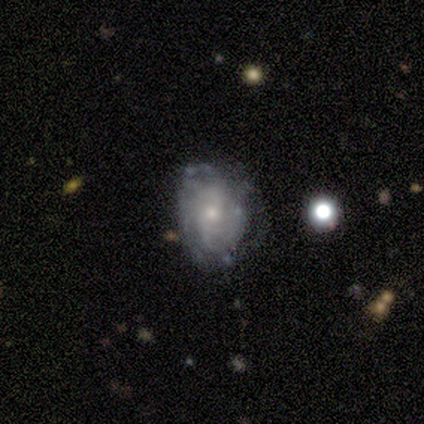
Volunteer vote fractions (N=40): Q: Smooth or featured?
A: featured or disk (70%); runner-up: smooth (28%)
Q: Edge-on disk?
A: no (100%)
Q: Bar?
A: no (79%); runner-up: weak (21%)
Q: Spiral arms?
A: yes (86%); runner-up: no (14%)
Q: Spiral winding?
A: tight (50%); runner-up: medium (25%)
Q: Spiral arm count?
A: can't tell (46%); runner-up: 2 (29%)
Q: Bulge size?
A: small (71%); runner-up: moderate (25%)
Q: Merging?
A: none (67%); runner-up: minor disturbance (26%)